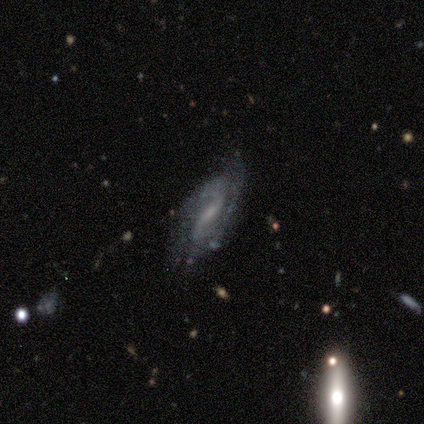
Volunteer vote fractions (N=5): featured or disk 80%, smooth 20%, star or artifact 0%. Down the decision tree: edge-on disk — no (100%); bar — weak (75%); spiral arms — yes (100%); spiral arm count — 2 (100%); spiral winding — tight (50%); bulge size — small (100%); merging — none (100%).